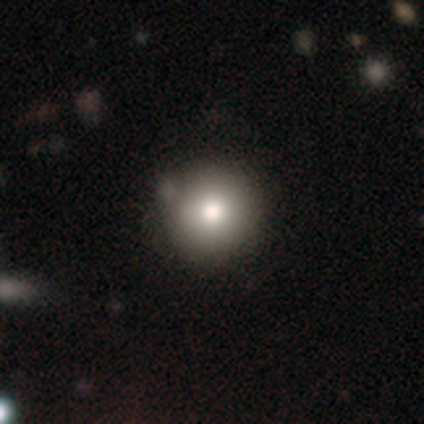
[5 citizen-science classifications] Smooth or featured?
  - smooth: 100% *
  - featured or disk: 0%
  - star or artifact: 0%
How rounded?
  - round: 100% *
  - in between: 0%
  - cigar-shaped: 0%
Merging?
  - none: 80% *
  - minor disturbance: 20%
  - major disturbance: 0%
  - merger: 0%